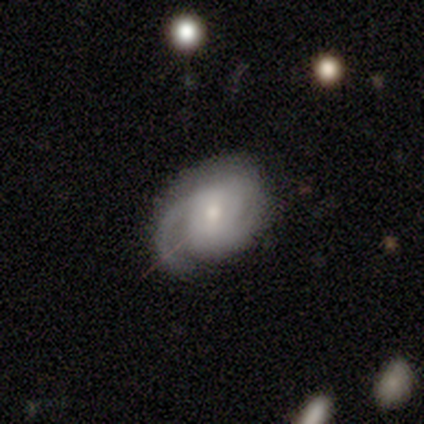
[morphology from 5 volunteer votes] Smooth or featured? featured or disk (100%)
Edge-on disk? no (100%)
Bar? no (60%)
Spiral arms? yes (100%)
Spiral winding? tight (40%, tied with medium)
Spiral arm count? 2 (80%)
Bulge size? moderate (60%)
Merging? minor disturbance (60%)